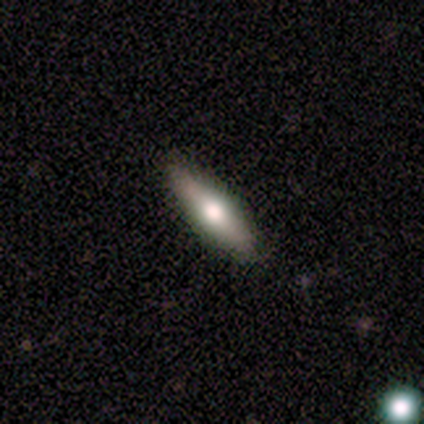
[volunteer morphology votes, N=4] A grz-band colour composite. It shows a smooth galaxy with no disk features (75%) that is cigar-shaped (67%). Merging: none (75%).